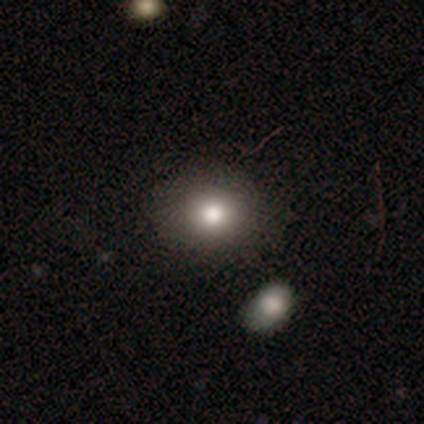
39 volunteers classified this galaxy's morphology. Overall: smooth (79%). How rounded: in between (58%; round 42%). Merging: none (58%).